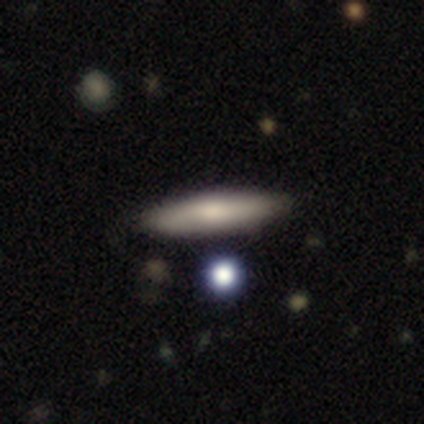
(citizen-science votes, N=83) This is likely a smooth galaxy (61%). How rounded: likely cigar-shaped (69%). Merging: clearly none (91%).